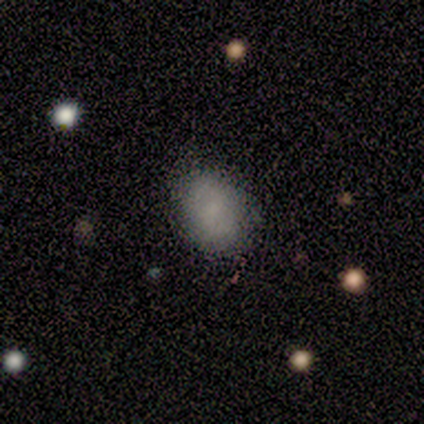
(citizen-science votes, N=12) Overall: smooth (83%). How rounded: in between (80%). Merging: none (82%).